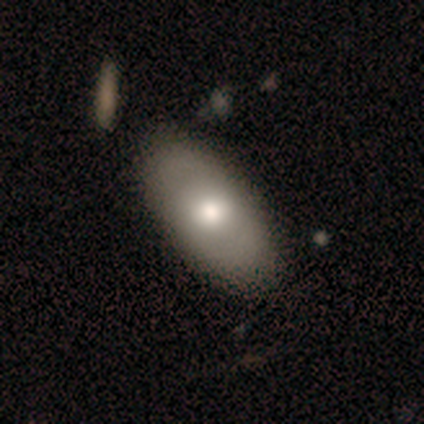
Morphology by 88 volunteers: Smooth or featured?
  - smooth: 72% *
  - featured or disk: 23%
  - star or artifact: 6%
How rounded?
  - in between: 92% *
  - round: 6%
  - cigar-shaped: 2%
Merging?
  - none: 81% *
  - minor disturbance: 8%
  - major disturbance: 6%
  - merger: 5%